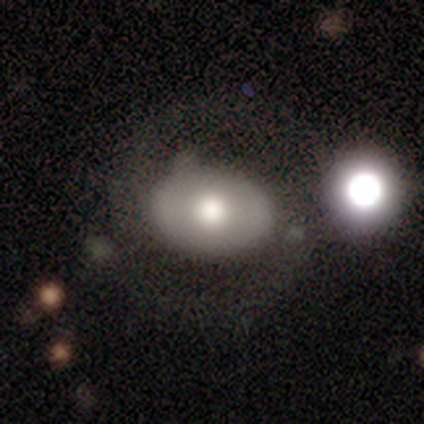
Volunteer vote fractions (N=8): Smooth or featured: featured or disk — 50% (smooth — 25%)
Edge-on disk: no — 100%
Bar: no — 75% (strong — 25%)
Spiral arms: yes — 50% (tied with no — 50%)
Spiral winding: medium — 50% (tied with loose — 50%)
Spiral arm count: 2 — 100%
Bulge size: large — 50% (tied with moderate — 50%)
Merging: none — 67% (minor disturbance — 17%)